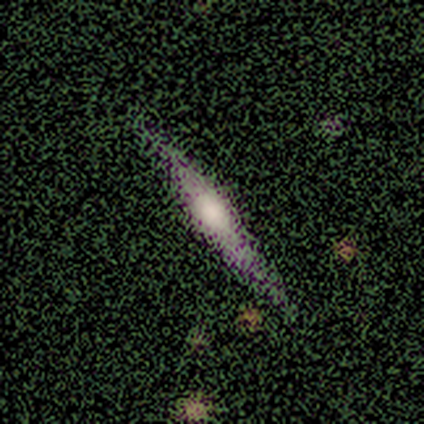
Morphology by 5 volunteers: smooth_or_featured: featured or disk (p=1.00)
disk_edge_on: yes (p=1.00)
edge_on_bulge: rounded (p=0.80) [alt: boxy p=0.20]
merging: none (p=1.00)